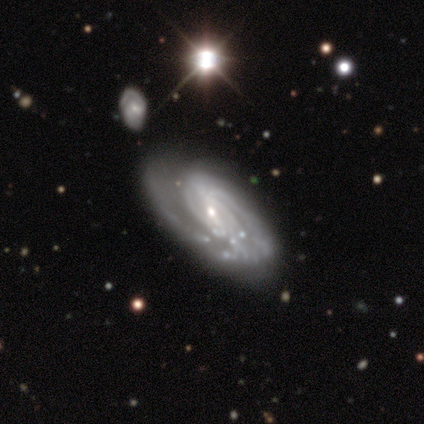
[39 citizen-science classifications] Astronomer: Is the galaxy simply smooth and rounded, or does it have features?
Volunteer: featured or disk — 92%.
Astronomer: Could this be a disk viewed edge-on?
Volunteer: no — 92%.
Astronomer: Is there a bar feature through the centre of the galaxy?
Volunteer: weak — 52% (runner-up: no, 36%).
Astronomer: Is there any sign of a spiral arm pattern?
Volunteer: yes — 97%.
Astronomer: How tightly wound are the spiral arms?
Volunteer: tight — 62%.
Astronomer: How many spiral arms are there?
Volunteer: can't tell — 38% (runner-up: 2, 28%).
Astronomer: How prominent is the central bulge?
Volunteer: small — 58%.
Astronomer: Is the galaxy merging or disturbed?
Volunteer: none — 49% (runner-up: major disturbance, 32%).